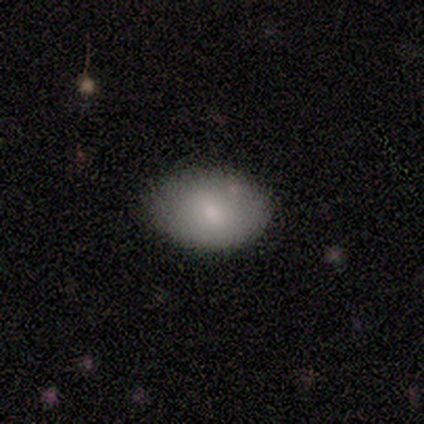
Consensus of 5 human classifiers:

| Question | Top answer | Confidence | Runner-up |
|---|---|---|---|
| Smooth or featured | smooth | 100% | — |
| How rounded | in between | 80% | round (20%) |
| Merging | none | 60% | minor disturbance (40%) |